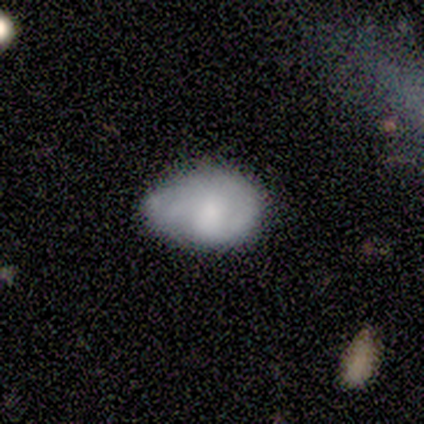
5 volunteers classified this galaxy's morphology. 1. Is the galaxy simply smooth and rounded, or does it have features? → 60% smooth, 40% featured or disk, 0% star or artifact.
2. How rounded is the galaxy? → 33% round (tied), 33% in between (tied), 33% cigar-shaped (tied).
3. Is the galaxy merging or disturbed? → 40% none (tied), 40% minor disturbance (tied), 20% major disturbance, 0% merger.